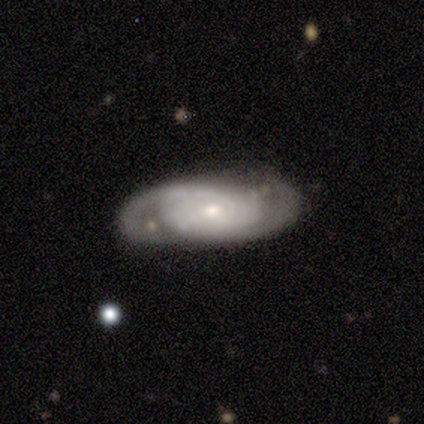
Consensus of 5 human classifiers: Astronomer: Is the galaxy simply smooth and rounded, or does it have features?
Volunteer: featured or disk — 80%.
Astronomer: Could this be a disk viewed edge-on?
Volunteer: no — 100%.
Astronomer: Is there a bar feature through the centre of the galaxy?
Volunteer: no — 100%.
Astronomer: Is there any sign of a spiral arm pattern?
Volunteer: yes — 100%.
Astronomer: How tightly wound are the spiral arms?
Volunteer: tight — 50%, tied with medium at 50%.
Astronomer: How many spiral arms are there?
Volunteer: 2 — 75%.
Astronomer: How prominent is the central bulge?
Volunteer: moderate — 50%, tied with small at 50%.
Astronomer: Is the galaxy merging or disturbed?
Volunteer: none — 60%.